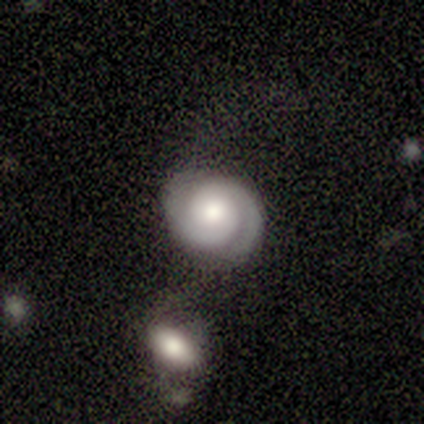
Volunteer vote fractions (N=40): A featured or disk galaxy (95%) with no bar (76%), 2 (95%) tight (76%) spiral arms (100%) and a moderate central bulge (59%).

Vote fractions:
- Smooth or featured? featured or disk: 95% / smooth: 2% / star or artifact: 2%
- Edge-on disk? no: 97% / yes: 3%
- Bar? no: 76% / weak: 16% / strong: 8%
- Spiral arms? yes: 100% / no: 0%
- Spiral winding? tight: 76% / medium: 22% / loose: 3%
- Spiral arm count? 2: 95% / 3: 3% / can't tell: 3% / 1: 0% / 4: 0% / more than 4: 0%
- Bulge size? moderate: 59% / large: 24% / small: 14% / none: 3% / dominant: 0%
- Merging? none: 67% / minor disturbance: 23% / merger: 8% / major disturbance: 3%